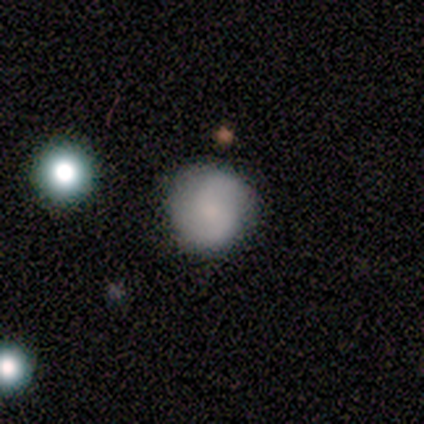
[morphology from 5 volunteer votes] This is clearly a smooth galaxy (80%). How rounded: likely round (75%). Merging: clearly none (100%).